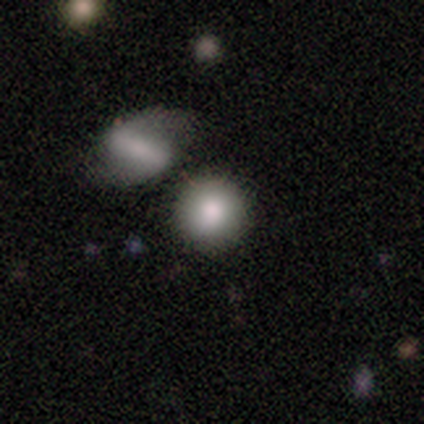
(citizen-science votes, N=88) smooth 77%, featured or disk 15%, star or artifact 8%. Down the decision tree: how rounded — round (90%); merging — none (73%).